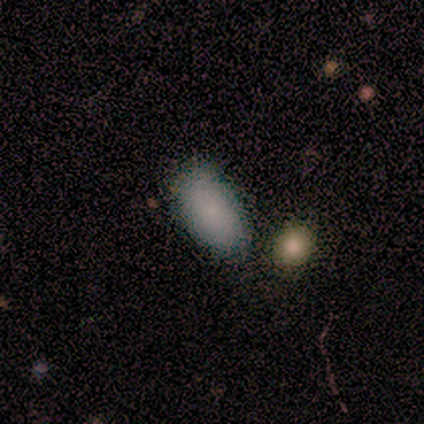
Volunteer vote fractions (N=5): Smooth or featured? 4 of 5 (80%) said smooth. How rounded? 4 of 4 (100%) said in between. Merging? 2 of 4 (50%, tied with merger) said none.